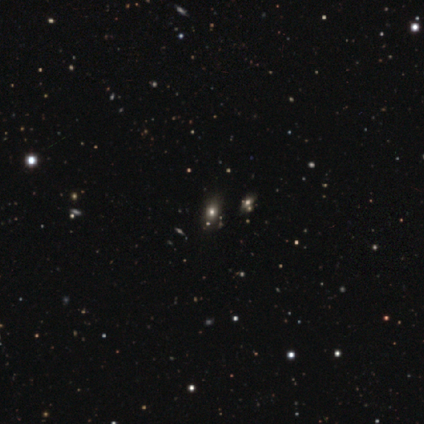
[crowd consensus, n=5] This is likely a star or artifact rather than a galaxy (60%).